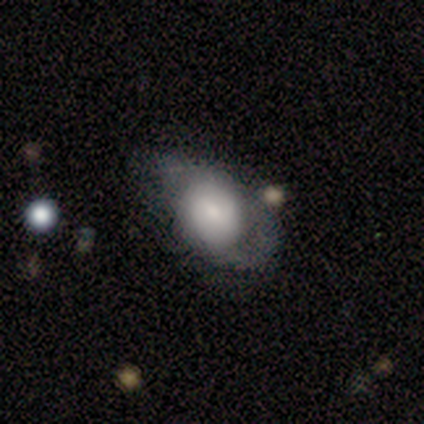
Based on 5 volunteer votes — Morphology: type=smooth (80%); roundness=in between (75%); merging=minor disturbance (40%, tied with major disturbance).